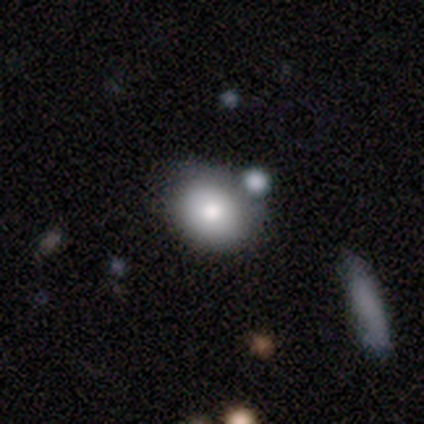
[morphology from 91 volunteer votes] Smooth or featured? smooth (79%)
How rounded? round (64%)
Merging? none (63%)